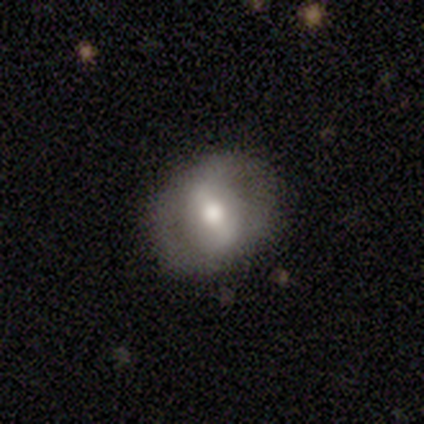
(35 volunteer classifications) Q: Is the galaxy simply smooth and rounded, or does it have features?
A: featured or disk — 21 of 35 (60%).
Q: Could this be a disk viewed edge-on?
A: no — 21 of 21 (100%).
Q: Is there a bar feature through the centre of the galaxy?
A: strong — 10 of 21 (48%).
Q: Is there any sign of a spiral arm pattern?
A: no — 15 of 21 (71%).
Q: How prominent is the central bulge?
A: moderate — 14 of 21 (67%).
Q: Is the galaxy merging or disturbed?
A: none — 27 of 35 (77%).